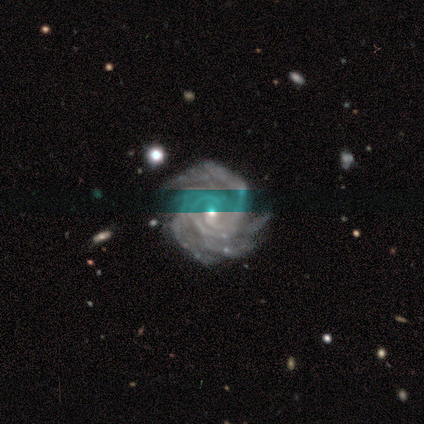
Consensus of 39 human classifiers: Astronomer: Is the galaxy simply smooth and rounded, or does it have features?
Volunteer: featured or disk — 97%.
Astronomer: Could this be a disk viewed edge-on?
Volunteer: no — 97%.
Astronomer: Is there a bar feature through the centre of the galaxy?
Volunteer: no — 49% (runner-up: weak, 38%).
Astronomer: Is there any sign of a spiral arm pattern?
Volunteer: yes — 100%.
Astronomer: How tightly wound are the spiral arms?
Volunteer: tight — 78%.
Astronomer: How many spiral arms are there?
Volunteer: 4 — 43% (runner-up: more than 4, 22%).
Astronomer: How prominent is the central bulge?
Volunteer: small — 76%.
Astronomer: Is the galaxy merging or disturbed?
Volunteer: none — 84%.